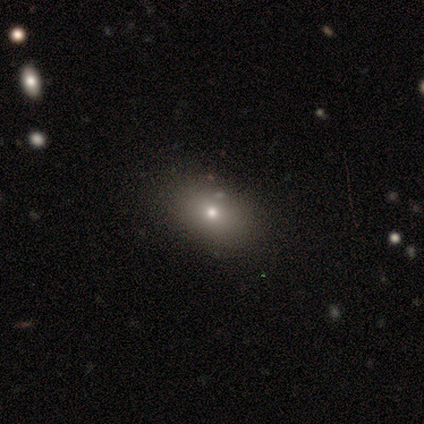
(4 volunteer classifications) smooth-or-featured: smooth: 75% | star or artifact: 25% | featured or disk: 0%
  how-rounded: in between: 100% | round: 0% | cigar-shaped: 0%
  merging: none: 100% | minor disturbance: 0% | major disturbance: 0% | merger: 0%